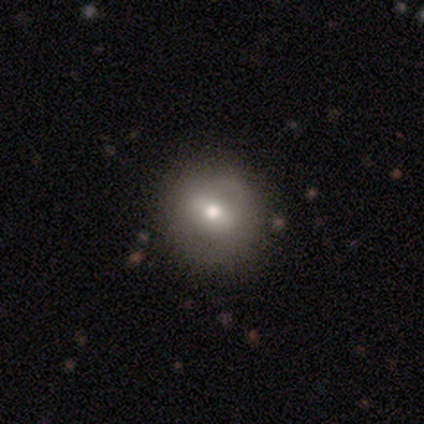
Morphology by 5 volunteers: Q: Smooth or featured?
A: smooth (40%); tied with: featured or disk (40%)
Q: How rounded?
A: round (50%); tied with: in between (50%)
Q: Merging?
A: none (100%)